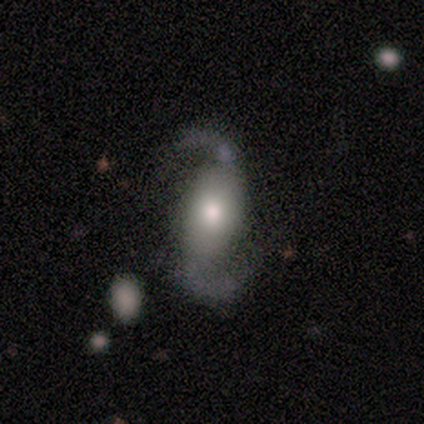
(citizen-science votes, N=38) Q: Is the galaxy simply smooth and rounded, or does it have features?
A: featured or disk — 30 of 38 (79%).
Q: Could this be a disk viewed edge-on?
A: no — 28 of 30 (93%).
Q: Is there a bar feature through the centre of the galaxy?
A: no — 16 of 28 (57%).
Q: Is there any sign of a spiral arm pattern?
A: yes — 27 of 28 (96%).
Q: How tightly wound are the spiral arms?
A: loose — 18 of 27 (67%).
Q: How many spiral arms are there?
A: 2 — 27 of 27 (100%).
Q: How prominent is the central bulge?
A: moderate — 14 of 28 (50%).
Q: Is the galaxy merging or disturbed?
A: none — 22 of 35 (63%).